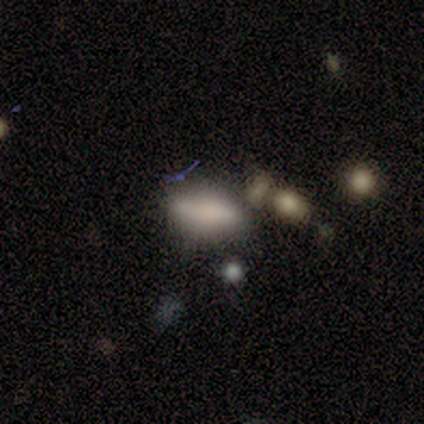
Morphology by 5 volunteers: Smooth or featured: smooth — 80% (featured or disk — 20%)
How rounded: cigar-shaped — 75% (in between — 25%)
Merging: none — 80% (minor disturbance — 20%)